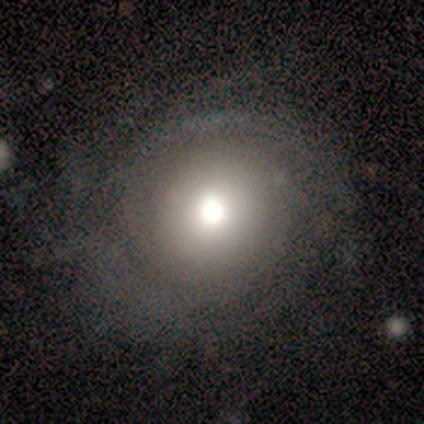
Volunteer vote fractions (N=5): Morphology: type=featured or disk (80%); edge-on=no (100%); bar=no (100%); spiral arms=yes (100%); winding=tight (50%, tied with loose); arm count=can't tell (75%); bulge=large (75%); merging=none (75%).